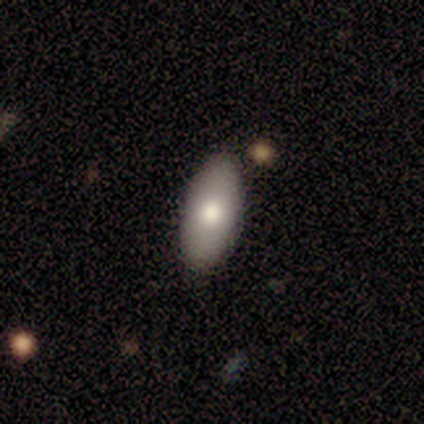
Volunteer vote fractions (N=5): A smooth galaxy with no disk features (80%) that is in between round and cigar-shaped (75%). Merging: none (100%).